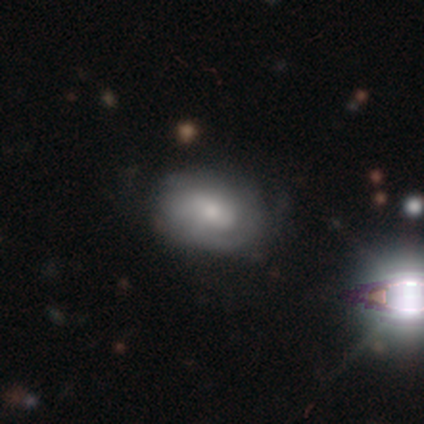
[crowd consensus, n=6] Morphology: type=featured or disk (67%); edge-on=no (100%); bar=weak (50%, tied with no); spiral arms=yes (75%); winding=medium (100%); arm count=2 (33%, tied with 3 and can't tell); bulge=small (50%); merging=none (83%).